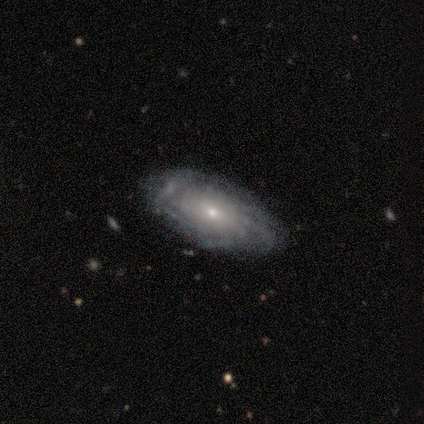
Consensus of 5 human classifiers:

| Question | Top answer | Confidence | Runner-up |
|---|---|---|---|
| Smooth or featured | featured or disk | 80% | smooth (20%) |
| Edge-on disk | no | 100% | — |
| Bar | strong | 75% | no (25%) |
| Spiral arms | yes | 75% | no (25%) |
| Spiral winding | tight | 33% | tied: medium (33%), loose (33%) |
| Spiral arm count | can't tell | 67% | more than 4 (33%) |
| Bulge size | small | 75% | dominant (25%) |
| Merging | none | 80% | minor disturbance (20%) |